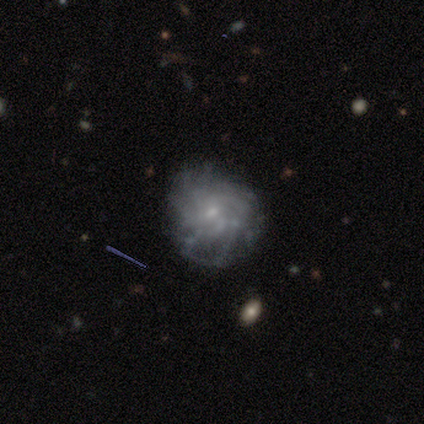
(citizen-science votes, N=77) Q: Smooth or featured?
A: featured or disk (73%); runner-up: smooth (19%)
Q: Edge-on disk?
A: no (100%)
Q: Bar?
A: no (77%); runner-up: weak (21%)
Q: Spiral arms?
A: yes (82%); runner-up: no (18%)
Q: Spiral winding?
A: tight (43%); runner-up: medium (30%)
Q: Spiral arm count?
A: can't tell (52%); runner-up: more than 4 (39%)
Q: Bulge size?
A: small (79%); runner-up: moderate (9%)
Q: Merging?
A: none (32%); runner-up: minor disturbance (11%)